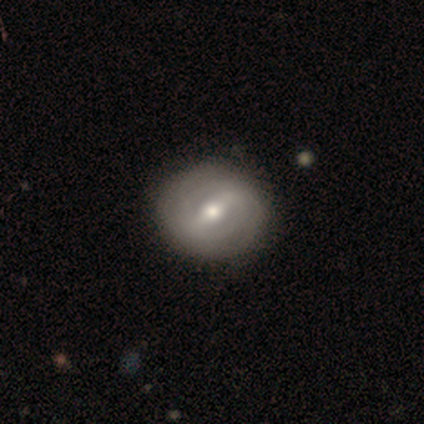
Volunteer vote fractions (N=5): Smooth or featured?
  - featured or disk: 80% *
  - smooth: 20%
  - star or artifact: 0%
Edge-on disk?
  - no: 100% *
  - yes: 0%
Bar?
  - strong: 50% * (tied)
  - weak: 50% * (tied)
  - no: 0%
Spiral arms?
  - no: 75% *
  - yes: 25%
Bulge size?
  - moderate: 100% *
  - dominant: 0%
  - large: 0%
  - small: 0%
  - none: 0%
Merging?
  - none: 60% *
  - minor disturbance: 40%
  - major disturbance: 0%
  - merger: 0%